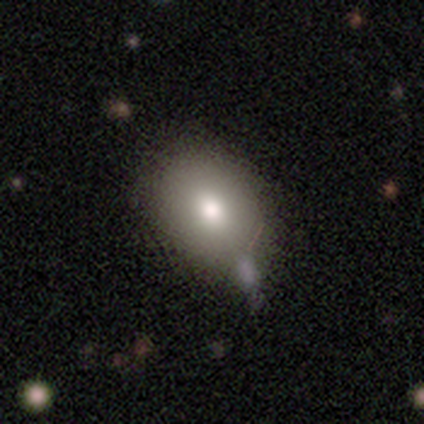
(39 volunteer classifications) A smooth galaxy with no disk features (79%) that is round (52%).

Vote fractions:
- Smooth or featured? smooth: 79% / featured or disk: 18% / star or artifact: 3%
- How rounded? round: 52% / in between: 48% / cigar-shaped: 0%
- Merging? none: 61% / minor disturbance: 11% / merger: 8% / major disturbance: 0%